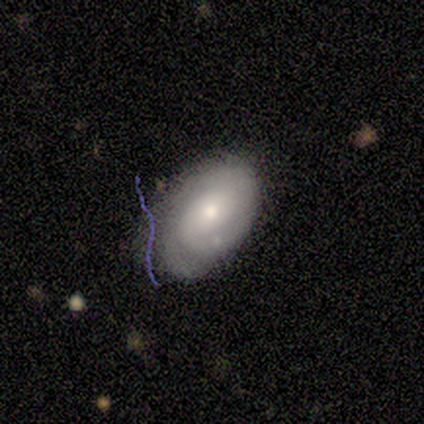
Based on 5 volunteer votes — This appears to be a featured or disk galaxy (80%) with no bar (100%), tight (67%) spiral arms (100%) and a large central bulge (33%, tied with moderate and small). Merging: none (60%).